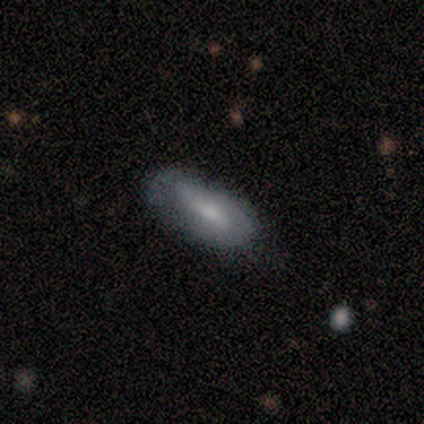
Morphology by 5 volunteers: Q: Smooth or featured?
A: smooth (80%); runner-up: featured or disk (20%)
Q: How rounded?
A: in between (75%); runner-up: cigar-shaped (25%)
Q: Merging?
A: none (60%); runner-up: minor disturbance (20%)